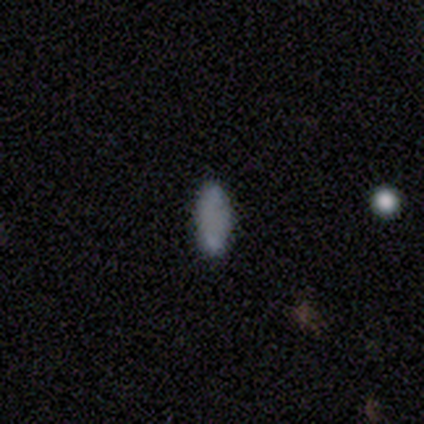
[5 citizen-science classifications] smooth 100%, featured or disk 0%, star or artifact 0%. Down the decision tree: how rounded — in between (60%); merging — none (100%).